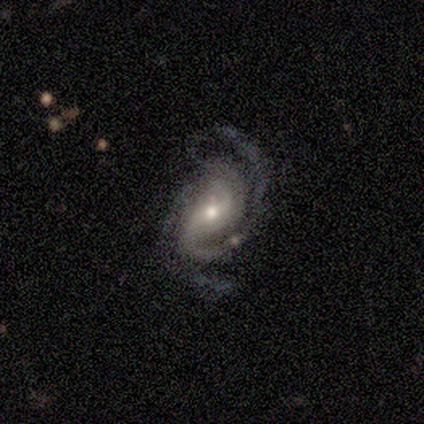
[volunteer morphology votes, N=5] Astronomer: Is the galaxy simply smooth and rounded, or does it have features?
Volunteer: featured or disk — 60% (runner-up: smooth, 40%).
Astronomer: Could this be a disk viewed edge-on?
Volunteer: no — 100%.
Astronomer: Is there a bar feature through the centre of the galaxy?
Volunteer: no — 67%.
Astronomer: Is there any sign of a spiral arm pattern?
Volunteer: yes — 100%.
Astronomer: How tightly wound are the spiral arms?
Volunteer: medium — 100%.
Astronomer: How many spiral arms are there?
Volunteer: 2 — 67%.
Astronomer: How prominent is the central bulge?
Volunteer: moderate — 67%.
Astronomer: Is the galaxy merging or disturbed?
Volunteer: none — 40%, tied with major disturbance at 40%.